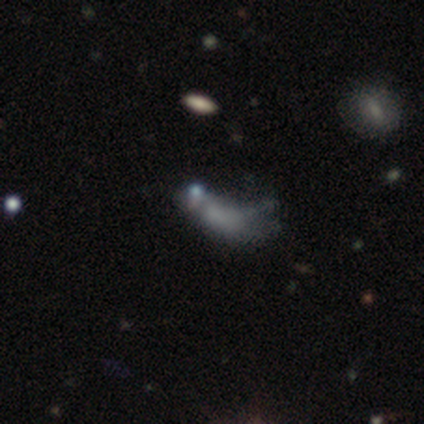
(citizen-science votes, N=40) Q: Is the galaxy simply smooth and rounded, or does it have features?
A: smooth — 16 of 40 (40%).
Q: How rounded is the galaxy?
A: in between — 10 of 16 (62%).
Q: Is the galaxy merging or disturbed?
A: minor disturbance — 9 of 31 (29%, tied with major disturbance).